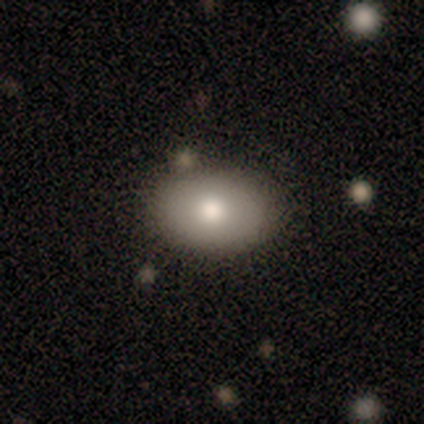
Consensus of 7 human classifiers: Smooth or featured? smooth (57%)
How rounded? in between (100%)
Merging? none (100%)